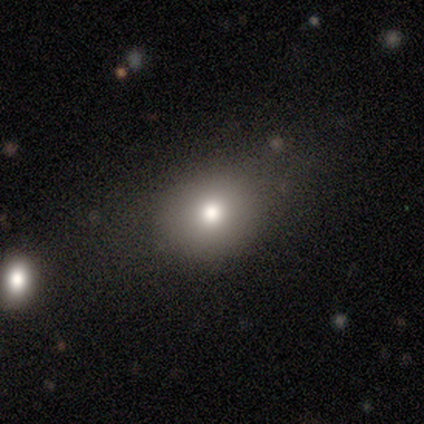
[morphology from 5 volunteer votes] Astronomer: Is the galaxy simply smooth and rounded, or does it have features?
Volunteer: smooth — 80%.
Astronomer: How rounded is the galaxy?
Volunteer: round — 75%.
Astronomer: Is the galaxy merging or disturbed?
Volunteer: none — 60%.